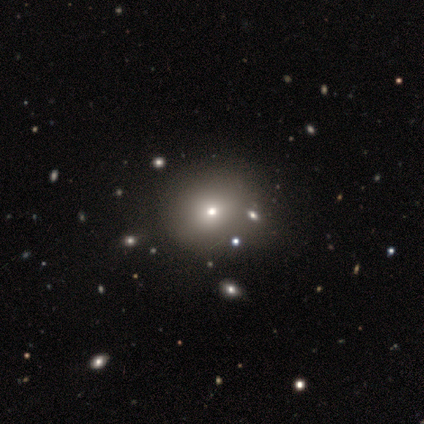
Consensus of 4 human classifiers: A smooth galaxy with no disk features (50%) that is round (50%, tied with in between). Merging: none (67%).